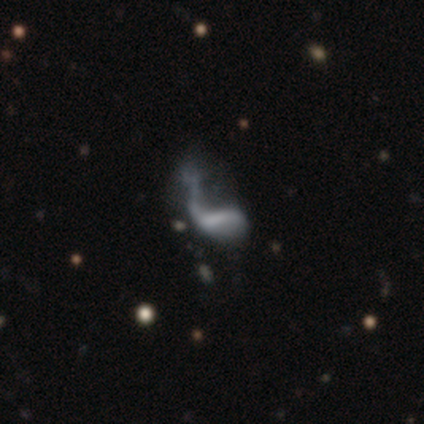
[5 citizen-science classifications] smooth-or-featured: featured or disk: 100% | smooth: 0% | star or artifact: 0%
  disk-edge-on: no: 100% | yes: 0%
    bar: strong: 40% (tied) | no: 40% (tied) | weak: 20%
    has-spiral-arms: yes: 60% | no: 40%
      spiral-winding: loose: 100% | tight: 0% | medium: 0%
      spiral-arm-count: 1: 67% | 2: 33% | 3: 0% | 4: 0% | more than 4: 0% | can't tell: 0%
    bulge-size: none: 80% | moderate: 20% | dominant: 0% | large: 0% | small: 0%
  merging: major disturbance: 80% | none: 20% | minor disturbance: 0% | merger: 0%